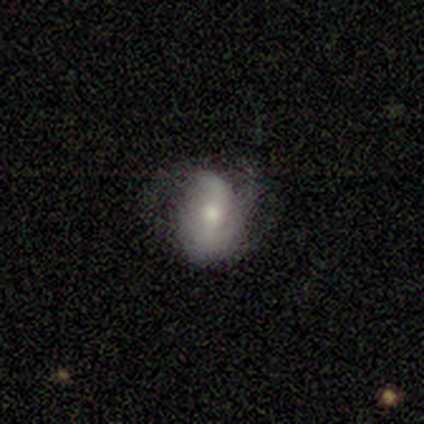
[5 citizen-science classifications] This is clearly a featured or disk galaxy (100%). It is clearly not viewed edge-on (100%). Bar: marginally strong (40%, tied with weak). Spiral arm pattern: clearly yes (100%). Spiral arm count: clearly 2 (80%). Spiral winding: likely loose (60%). Central bulge: clearly moderate (100%). Merging: clearly none (80%).